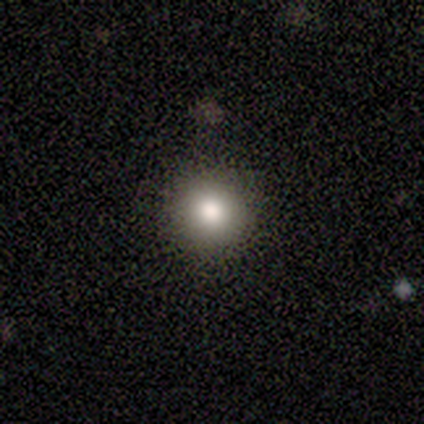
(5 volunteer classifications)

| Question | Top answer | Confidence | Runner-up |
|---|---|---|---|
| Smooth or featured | smooth | 60% | star or artifact (40%) |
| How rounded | round | 100% | — |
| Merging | none | 100% | — |